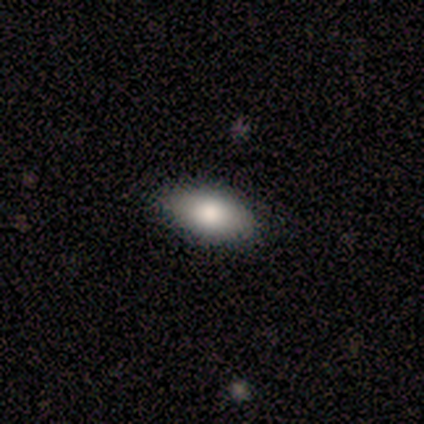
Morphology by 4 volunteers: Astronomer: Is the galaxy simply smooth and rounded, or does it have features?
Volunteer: smooth — 100%.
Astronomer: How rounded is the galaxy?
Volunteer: in between — 100%.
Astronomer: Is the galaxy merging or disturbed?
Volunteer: none — 100%.